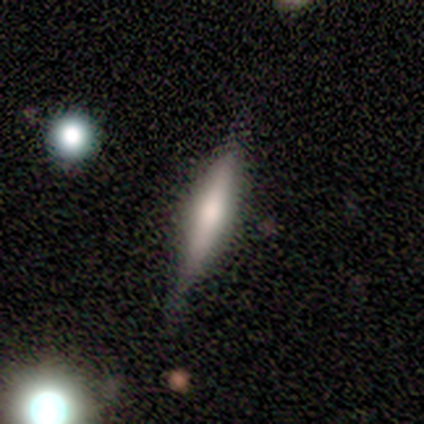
A smooth galaxy with no disk features (48%, tied with featured or disk) that is cigar-shaped (89%).

Vote fractions:
- Smooth or featured? smooth: 48% (tied) / featured or disk: 48% (tied) / star or artifact: 5%
- How rounded? cigar-shaped: 89% / round: 5% / in between: 5%
- Merging? none: 82% / minor disturbance: 11% / major disturbance: 5% / merger: 3%